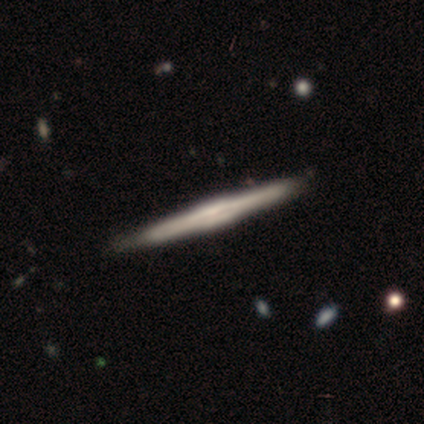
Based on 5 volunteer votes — This is clearly a featured or disk galaxy (80%). It is clearly viewed edge-on (100%). Edge-on bulge: likely boxy (75%). Merging: likely none (75%).